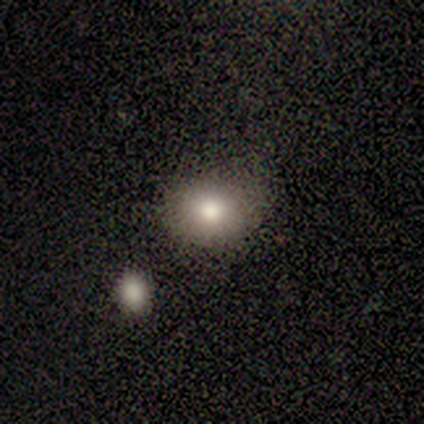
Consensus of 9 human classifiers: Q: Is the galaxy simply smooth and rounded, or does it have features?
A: smooth — 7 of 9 (78%).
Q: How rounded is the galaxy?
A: round — 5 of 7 (71%).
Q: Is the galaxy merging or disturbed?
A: none — 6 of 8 (75%).